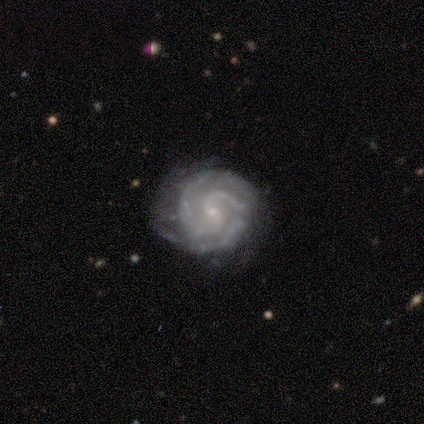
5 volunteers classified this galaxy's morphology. A featured or disk galaxy (100%) with no bar (100%), 2 (100%) tight (80%) spiral arms (100%) and a small central bulge (100%). Merging: none (80%).